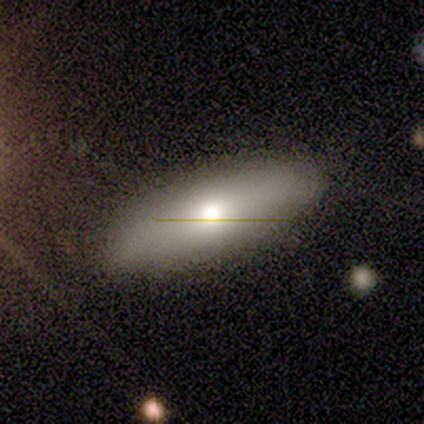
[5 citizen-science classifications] A featured or disk galaxy (60%) viewed edge-on (67%) with a rounded central bulge (100%).

Vote fractions:
- Smooth or featured? featured or disk: 60% / smooth: 40% / star or artifact: 0%
- Edge-on disk? yes: 67% / no: 33%
- Edge-on bulge? rounded: 100% / boxy: 0% / none: 0%
- Merging? none: 100% / minor disturbance: 0% / major disturbance: 0% / merger: 0%